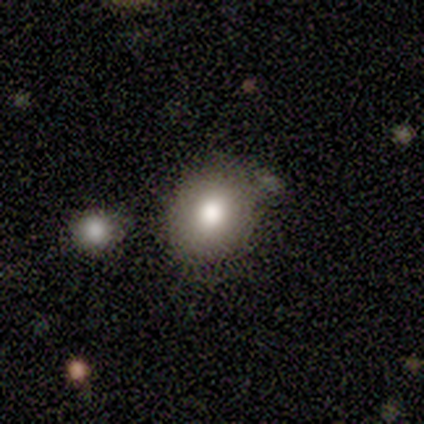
A smooth galaxy with no disk features (80%) that is round (50%, tied with in between).

Vote fractions:
- Smooth or featured? smooth: 80% / featured or disk: 20% / star or artifact: 0%
- How rounded? round: 50% (tied) / in between: 50% (tied) / cigar-shaped: 0%
- Merging? none: 80% / minor disturbance: 20% / major disturbance: 0% / merger: 0%